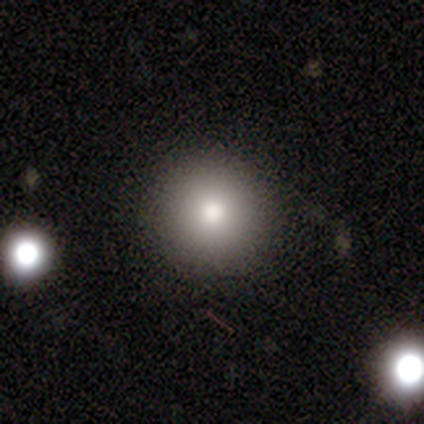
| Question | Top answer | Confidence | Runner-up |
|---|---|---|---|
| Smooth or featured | smooth | 84% | featured or disk (11%) |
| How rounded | round | 94% | in between (6%) |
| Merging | none | 86% | minor disturbance (8%) |